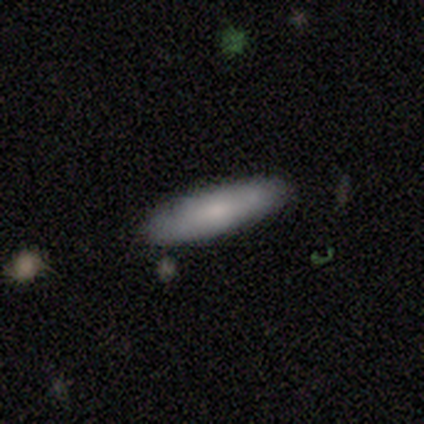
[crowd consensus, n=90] Smooth or featured? smooth (74%)
How rounded? cigar-shaped (73%)
Merging? none (84%)